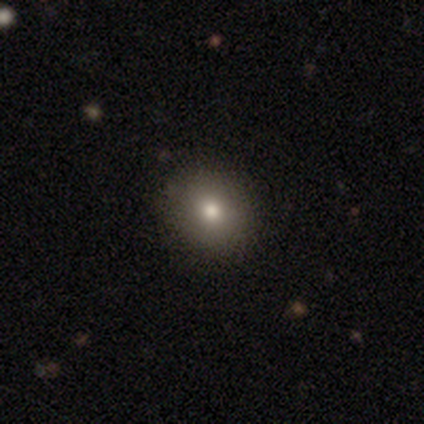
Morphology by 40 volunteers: A smooth galaxy with no disk features (75%) that is round (70%). Merging: none (94%).